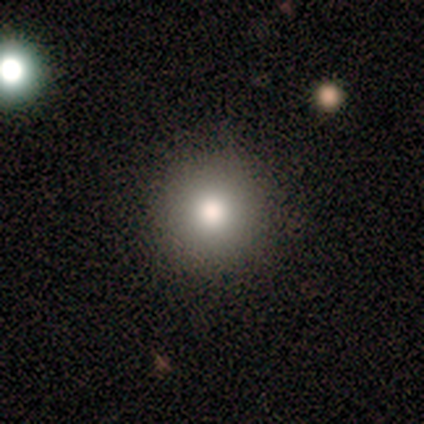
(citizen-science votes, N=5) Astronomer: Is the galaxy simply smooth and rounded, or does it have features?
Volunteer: smooth — 100%.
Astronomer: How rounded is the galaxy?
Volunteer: round — 100%.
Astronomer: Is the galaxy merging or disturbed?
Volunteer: none — 100%.